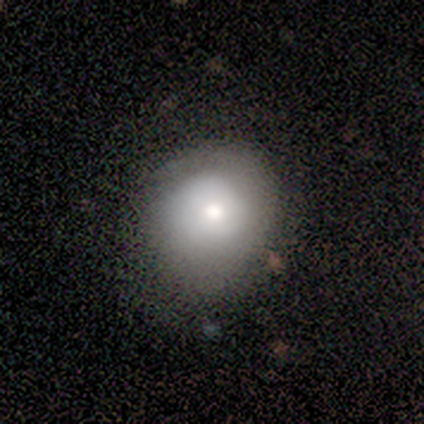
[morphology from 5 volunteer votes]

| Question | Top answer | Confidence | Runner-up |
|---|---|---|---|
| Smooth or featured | smooth | 80% | featured or disk (20%) |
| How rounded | round | 100% | — |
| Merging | none | 40% | tied: minor disturbance (40%) |